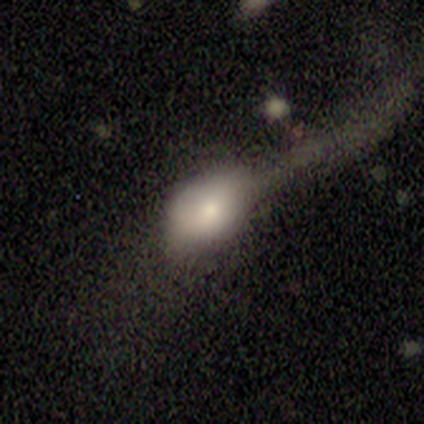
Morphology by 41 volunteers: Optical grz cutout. It shows a smooth galaxy with no disk features (73%) that is in between round and cigar-shaped (83%). Merging: major disturbance (57%).